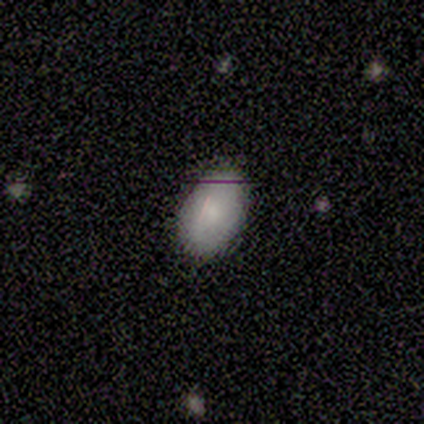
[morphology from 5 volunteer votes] type=smooth (100%); roundness=in between (100%); merging=none (80%).